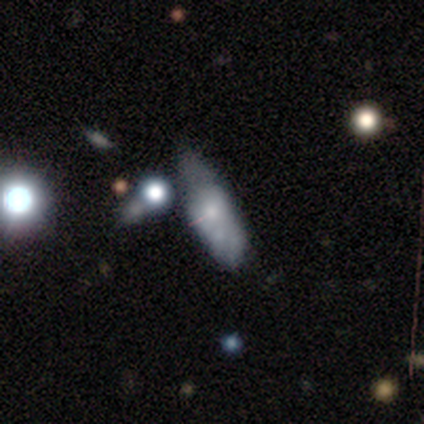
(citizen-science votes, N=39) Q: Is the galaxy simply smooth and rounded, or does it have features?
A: smooth — 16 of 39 (41%, tied with featured or disk).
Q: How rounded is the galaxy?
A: in between — 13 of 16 (81%).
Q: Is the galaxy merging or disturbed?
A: none — 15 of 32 (47%).